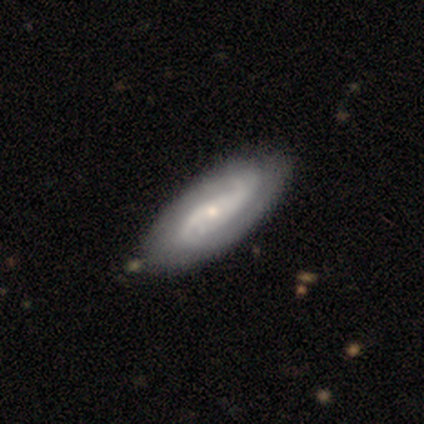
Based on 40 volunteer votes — Smooth or featured? 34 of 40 (85%) said featured or disk. Edge-on disk? 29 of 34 (85%) said no. Bar? 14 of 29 (48%) said no. Spiral arms? 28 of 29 (97%) said yes. Spiral winding? 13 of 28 (46%) said medium. Spiral arm count? 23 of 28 (82%) said 2. Bulge size? 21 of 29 (72%) said small. Merging? 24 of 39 (62%) said none.